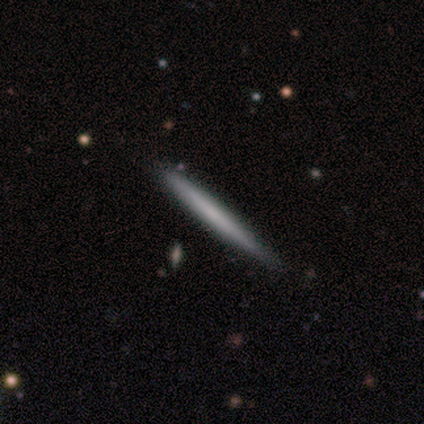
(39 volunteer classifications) Smooth or featured: smooth — 56% (featured or disk — 41%)
How rounded: cigar-shaped — 95% (round — 5%)
Merging: none — 71% (minor disturbance — 21%)